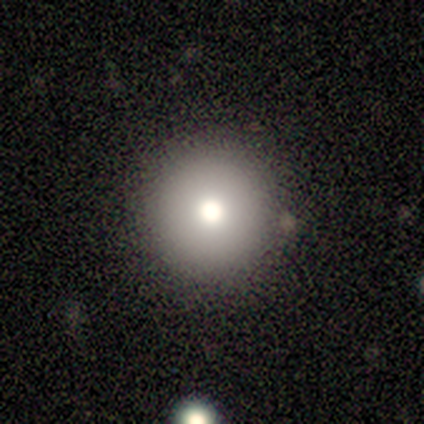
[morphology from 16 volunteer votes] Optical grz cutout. It shows a smooth galaxy with no disk features (94%) that is round (100%). Merging: none (93%).